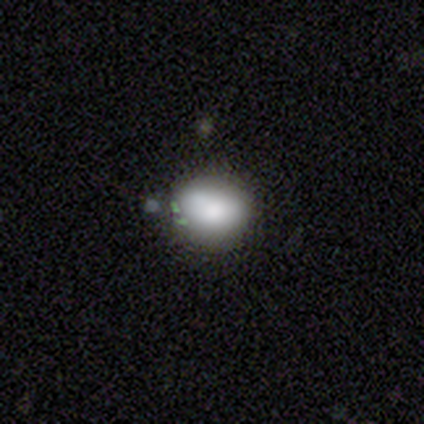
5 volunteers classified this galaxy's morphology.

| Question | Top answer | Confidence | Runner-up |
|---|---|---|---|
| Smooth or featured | smooth | 100% | — |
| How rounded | round | 80% | in between (20%) |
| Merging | none | 80% | minor disturbance (20%) |